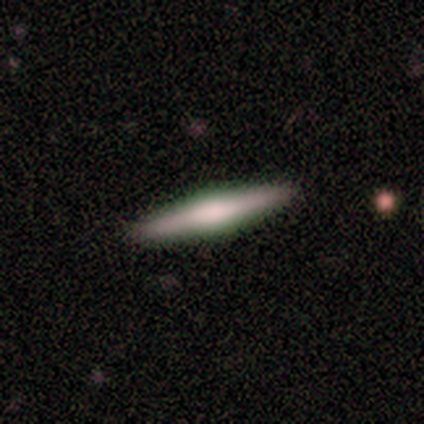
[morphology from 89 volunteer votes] featured or disk 57%, smooth 37%, star or artifact 6%. Down the decision tree: edge-on disk — yes (96%); edge-on bulge — rounded (53%); merging — none (93%).